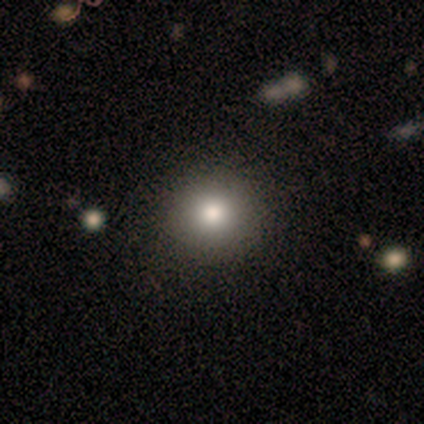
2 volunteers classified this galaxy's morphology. smooth-or-featured: smooth: 50% (tied) | featured or disk: 50% (tied) | star or artifact: 0%
  how-rounded: round: 100% | in between: 0% | cigar-shaped: 0%
  merging: none: 100% | minor disturbance: 0% | major disturbance: 0% | merger: 0%